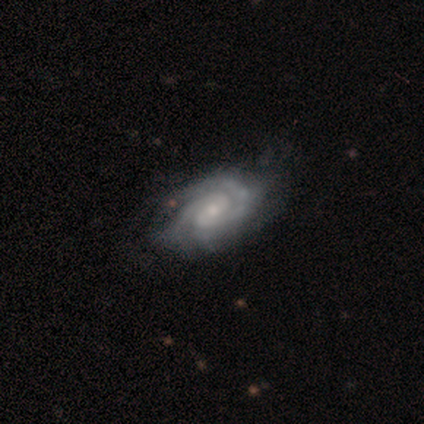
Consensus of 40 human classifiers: Morphology: type=featured or disk (98%); edge-on=no (97%); bar=no (50%); spiral arms=yes (100%); winding=tight (71%); arm count=2 (71%); bulge=small (61%); merging=none (46%).